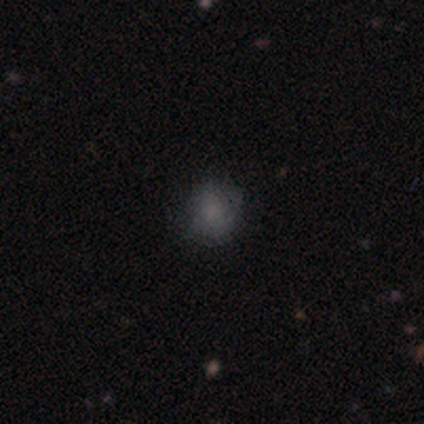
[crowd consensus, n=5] Overall: smooth (100%). How rounded: round (60%; in between 40%). Merging: none (80%).